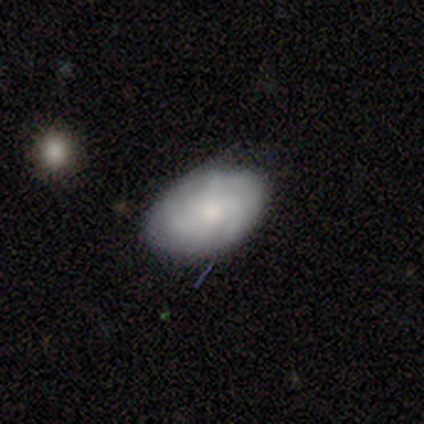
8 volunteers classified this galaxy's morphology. Overall: featured or disk (62%; smooth 25%). Edge-on disk: no (100%). Bar: no (60%; weak 40%). Spiral arms: yes (80%). Spiral arm count: 2 (75%). Spiral winding: medium (75%). Bulge size: moderate (60%; small 20%). Merging: none (71%).